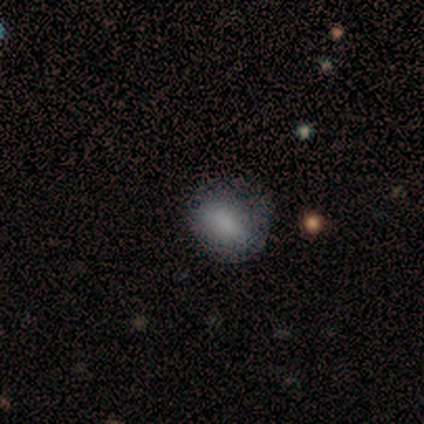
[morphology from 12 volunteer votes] Smooth or featured? 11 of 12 (92%) said smooth. How rounded? 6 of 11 (55%) said round. Merging? 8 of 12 (67%) said none.